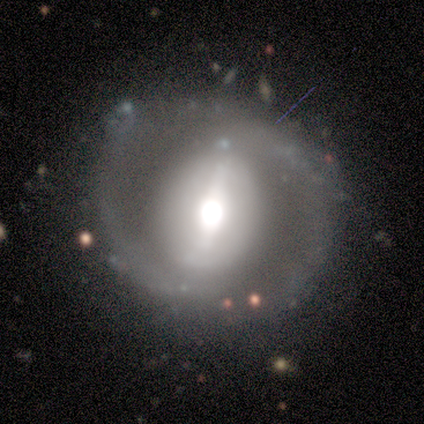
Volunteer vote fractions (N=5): Smooth or featured: featured or disk — 80% (smooth — 20%)
Edge-on disk: no — 100%
Bar: strong — 50% (weak — 25%)
Spiral arms: yes — 50% (tied with no — 50%)
Spiral winding: tight — 100%
Spiral arm count: 2 — 100%
Bulge size: large — 50% (tied with moderate — 50%)
Merging: none — 80% (minor disturbance — 20%)